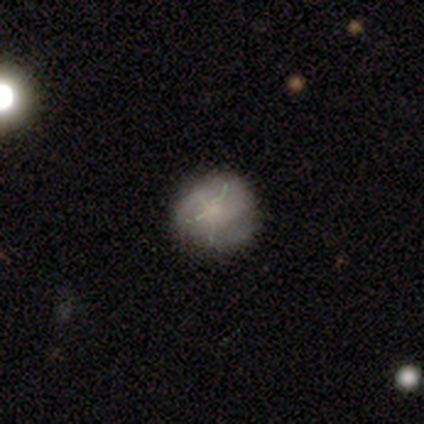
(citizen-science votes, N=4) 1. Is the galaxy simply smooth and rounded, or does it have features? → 75% star or artifact, 25% featured or disk, 0% smooth.